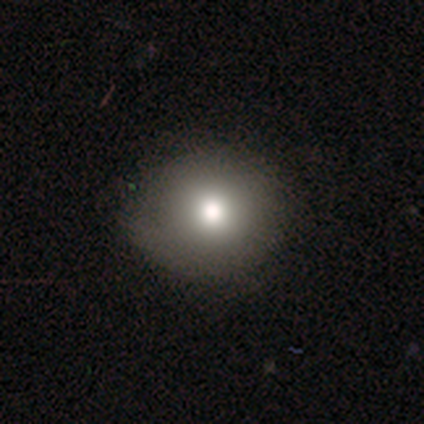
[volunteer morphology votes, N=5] Smooth or featured?
  - smooth: 60% *
  - featured or disk: 20%
  - star or artifact: 20%
How rounded?
  - round: 100% *
  - in between: 0%
  - cigar-shaped: 0%
Merging?
  - none: 75% *
  - minor disturbance: 25%
  - major disturbance: 0%
  - merger: 0%